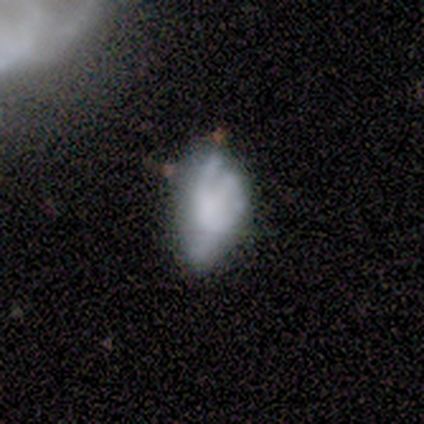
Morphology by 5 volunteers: type=featured or disk (100%); edge-on=no (100%); bar=no (100%); spiral arms=no (60%); bulge=none (80%); merging=none (40%, tied with major disturbance).